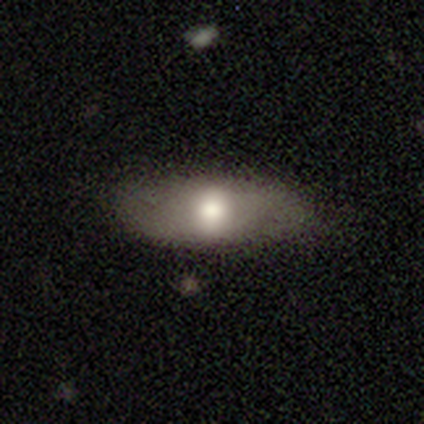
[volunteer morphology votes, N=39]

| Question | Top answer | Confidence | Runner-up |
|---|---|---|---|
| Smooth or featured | smooth | 64% | featured or disk (33%) |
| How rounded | in between | 92% | cigar-shaped (8%) |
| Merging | none | 66% | minor disturbance (24%) |